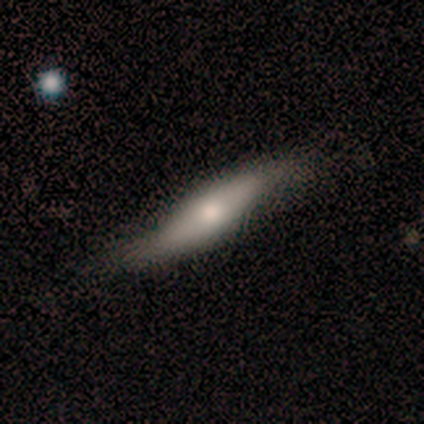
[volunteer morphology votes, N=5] Q: Smooth or featured?
A: featured or disk (60%); runner-up: smooth (40%)
Q: Edge-on disk?
A: yes (67%); runner-up: no (33%)
Q: Edge-on bulge?
A: boxy (50%); tied with: rounded (50%)
Q: Merging?
A: minor disturbance (60%); runner-up: none (20%)